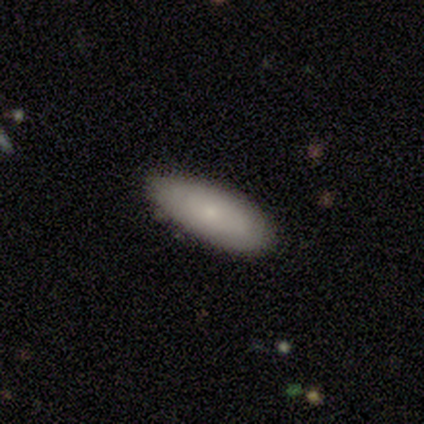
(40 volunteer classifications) A smooth galaxy with no disk features (82%) that is in between round and cigar-shaped (76%).

Vote fractions:
- Smooth or featured? smooth: 82% / featured or disk: 18% / star or artifact: 0%
- How rounded? in between: 76% / cigar-shaped: 24% / round: 0%
- Merging? none: 82% / minor disturbance: 15% / major disturbance: 2% / merger: 0%